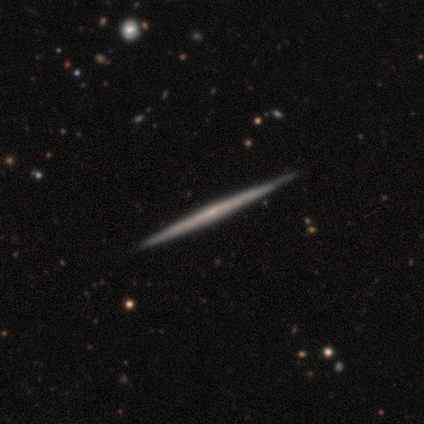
Smooth or featured?
  - featured or disk: 74% *
  - smooth: 24%
  - star or artifact: 2%
Edge-on disk?
  - yes: 98% *
  - no: 2%
Edge-on bulge?
  - none: 73% *
  - rounded: 26%
  - boxy: 1%
Merging?
  - none: 90% *
  - minor disturbance: 9%
  - merger: 2%
  - major disturbance: 0%